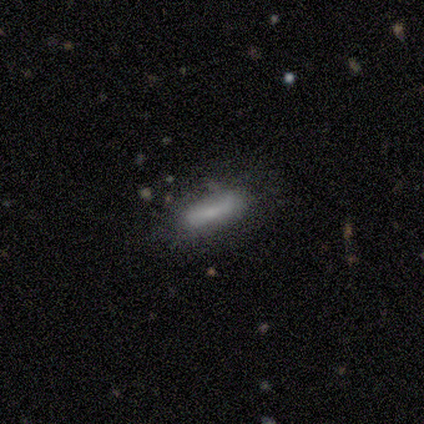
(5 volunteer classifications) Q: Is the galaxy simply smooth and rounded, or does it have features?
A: smooth — 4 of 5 (80%).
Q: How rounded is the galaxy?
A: in between — 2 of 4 (50%, tied with cigar-shaped).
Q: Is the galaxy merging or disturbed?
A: none — 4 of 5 (80%).